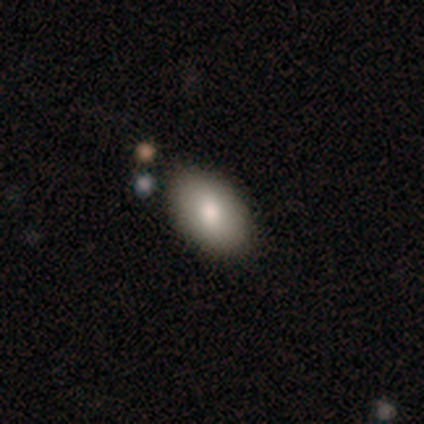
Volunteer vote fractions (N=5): A smooth galaxy with no disk features (100%) that is in between round and cigar-shaped (100%).

Vote fractions:
- Smooth or featured? smooth: 100% / featured or disk: 0% / star or artifact: 0%
- How rounded? in between: 100% / round: 0% / cigar-shaped: 0%
- Merging? none: 100% / minor disturbance: 0% / major disturbance: 0% / merger: 0%